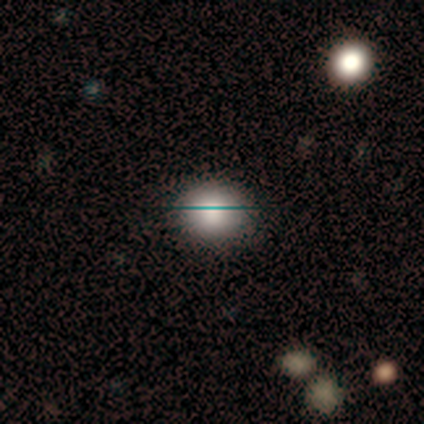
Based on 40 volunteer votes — Overall: smooth (70%). How rounded: round (82%). Merging: none (85%).